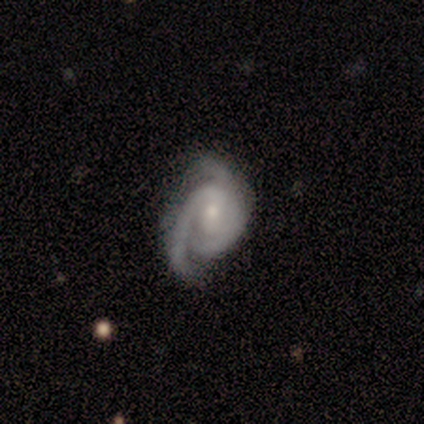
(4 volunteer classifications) Overall: featured or disk (100%). Edge-on disk: no (100%). Bar: no (100%). Spiral arms: yes (75%). Spiral arm count: 2 (100%). Spiral winding: tight (100%). Bulge size: moderate (50%, tied with small). Merging: minor disturbance (75%).